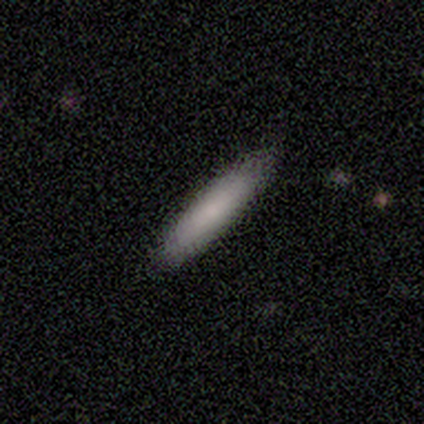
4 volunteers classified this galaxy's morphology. This is likely a smooth galaxy (75%). How rounded: marginally round (33%, tied with in between and cigar-shaped). Merging: likely none (75%).